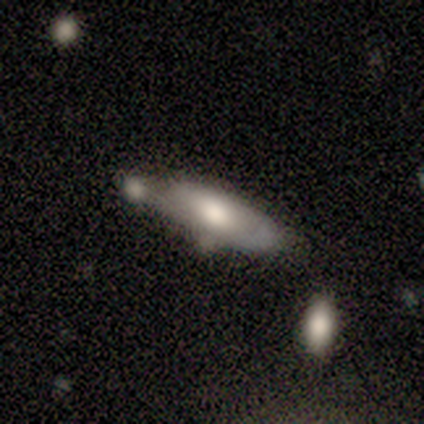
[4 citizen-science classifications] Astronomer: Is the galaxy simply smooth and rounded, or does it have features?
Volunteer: smooth — 75%.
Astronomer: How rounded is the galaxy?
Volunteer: cigar-shaped — 67%.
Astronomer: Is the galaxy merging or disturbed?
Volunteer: merger — 75%.